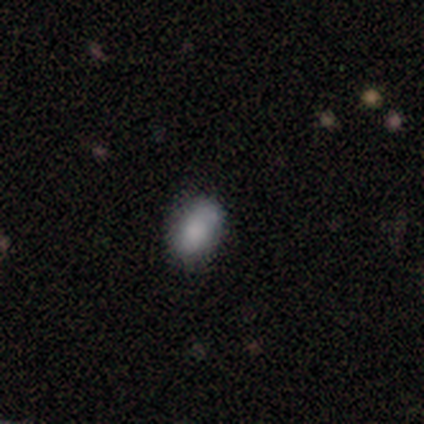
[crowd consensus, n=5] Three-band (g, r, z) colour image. It shows a smooth galaxy with no disk features (80%) that is in between round and cigar-shaped (100%). Merging: none (100%).